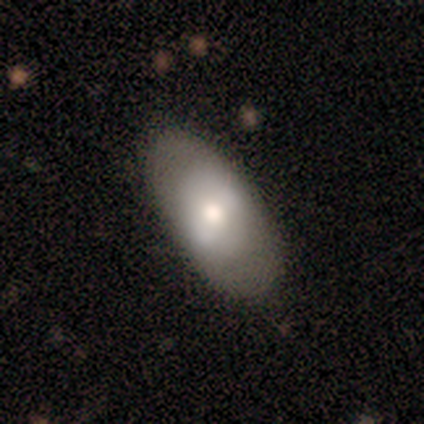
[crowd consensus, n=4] smooth-or-featured: smooth: 75% | featured or disk: 25% | star or artifact: 0%
  how-rounded: in between: 67% | round: 33% | cigar-shaped: 0%
  merging: none: 75% | major disturbance: 25% | minor disturbance: 0% | merger: 0%